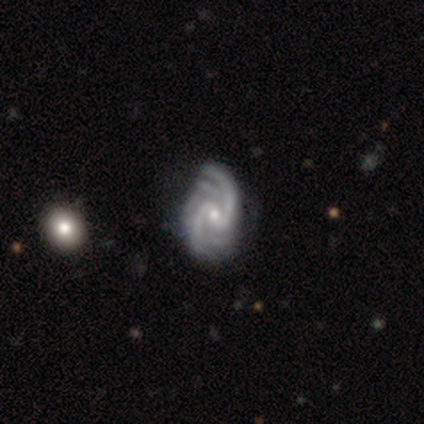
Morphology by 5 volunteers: type=featured or disk (100%); edge-on=no (100%); bar=no (60%); spiral arms=yes (100%); winding=medium (60%); arm count=2 (80%); bulge=small (80%); merging=none (100%).